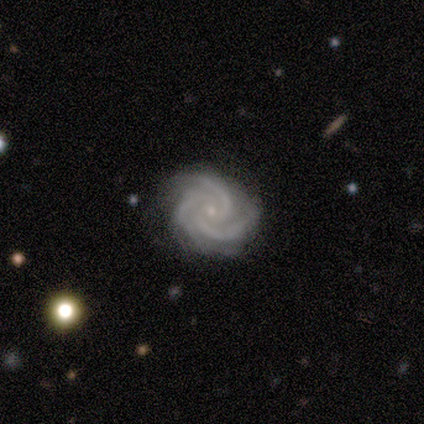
smooth-or-featured: featured or disk: 100% | smooth: 0% | star or artifact: 0%
  disk-edge-on: no: 100% | yes: 0%
    bar: no: 100% | strong: 0% | weak: 0%
    has-spiral-arms: yes: 100% | no: 0%
      spiral-winding: tight: 80% | medium: 20% | loose: 0%
      spiral-arm-count: 3: 100% | 1: 0% | 2: 0% | 4: 0% | more than 4: 0% | can't tell: 0%
    bulge-size: small: 100% | dominant: 0% | large: 0% | moderate: 0% | none: 0%
  merging: none: 100% | minor disturbance: 0% | major disturbance: 0% | merger: 0%